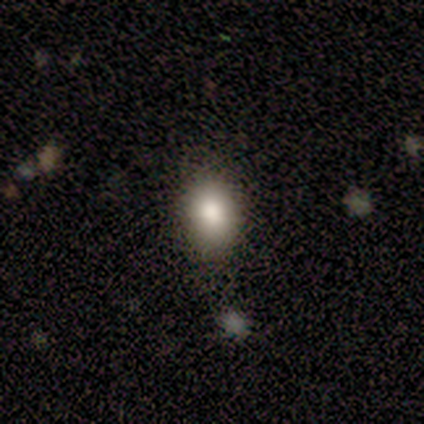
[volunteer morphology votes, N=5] This appears to be a smooth galaxy with no disk features (80%) that is in between round and cigar-shaped (100%). Merging: none (100%).